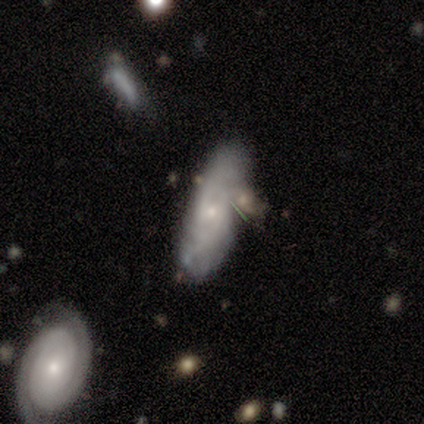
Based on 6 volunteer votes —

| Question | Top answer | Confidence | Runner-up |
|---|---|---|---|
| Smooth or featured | featured or disk | 67% | smooth (33%) |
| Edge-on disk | no | 75% | yes (25%) |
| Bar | no | 100% | — |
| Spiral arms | no | 67% | yes (33%) |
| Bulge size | small | 67% | none (33%) |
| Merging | major disturbance | 33% | tied: merger (33%) |